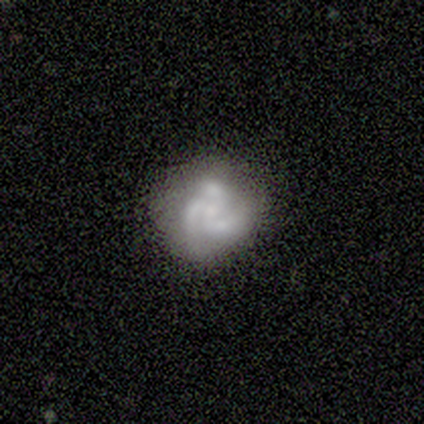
Smooth or featured?
  - featured or disk: 84% *
  - smooth: 11%
  - star or artifact: 4%
Edge-on disk?
  - no: 99% *
  - yes: 1%
Bar?
  - no: 76% *
  - weak: 24%
  - strong: 0%
Spiral arms?
  - yes: 87% *
  - no: 13%
Spiral winding?
  - medium: 49% *
  - tight: 32%
  - loose: 18%
Spiral arm count?
  - 3: 97% *
  - 2: 3%
  - 1: 0%
  - 4: 0%
  - more than 4: 0%
  - can't tell: 0%
Bulge size?
  - small: 53% *
  - moderate: 21%
  - none: 17%
  - dominant: 4%
  - large: 4%
Merging?
  - none: 73% *
  - minor disturbance: 19%
  - major disturbance: 7%
  - merger: 1%